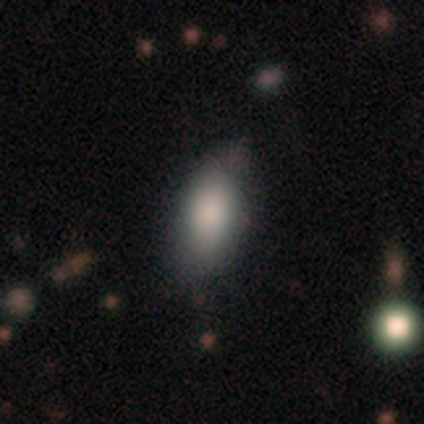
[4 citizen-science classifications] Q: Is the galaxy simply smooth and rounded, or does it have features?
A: smooth — 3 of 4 (75%).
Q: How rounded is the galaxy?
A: in between — 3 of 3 (100%).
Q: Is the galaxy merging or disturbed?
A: minor disturbance — 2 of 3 (67%).